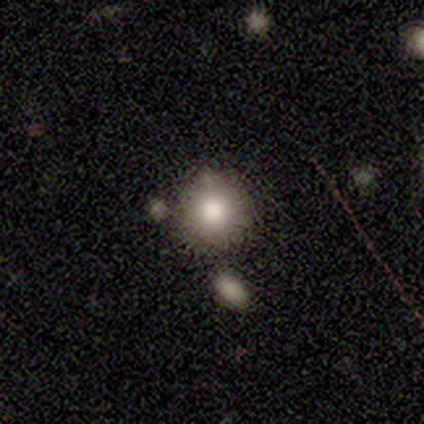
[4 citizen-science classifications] Volunteers were most divided on "smooth or featured" (2-way tie): smooth: 50%, star or artifact: 50%, featured or disk: 0%. More confident: how rounded — round (100%); merging — none (100%).